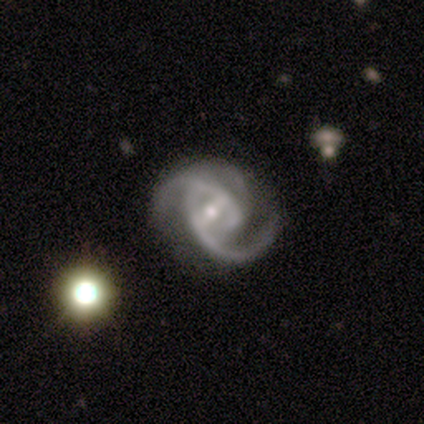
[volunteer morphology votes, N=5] Smooth or featured: featured or disk — 100%
Edge-on disk: no — 100%
Bar: weak — 60% (strong — 40%)
Spiral arms: yes — 100%
Spiral winding: medium — 80% (tight — 20%)
Spiral arm count: 2 — 60% (can't tell — 40%)
Bulge size: small — 100%
Merging: none — 40% (tied with minor disturbance — 40%)